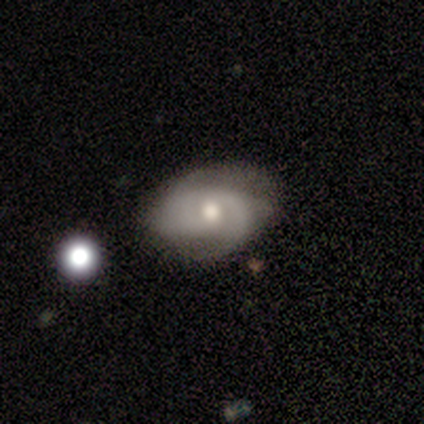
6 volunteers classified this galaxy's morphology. type=featured or disk (67%); edge-on=no (100%); bar=no (75%); spiral arms=yes (100%); winding=medium (75%); arm count=2 (100%); bulge=moderate (75%); merging=none (83%).